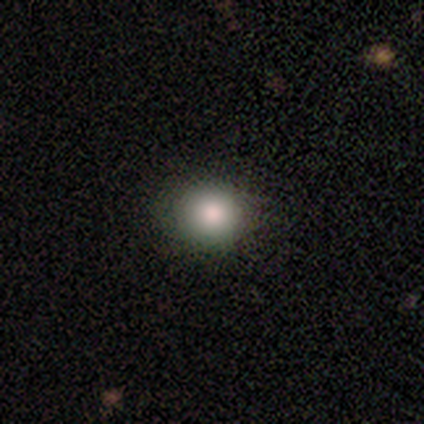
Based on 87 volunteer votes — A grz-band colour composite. It shows a smooth galaxy with no disk features (84%) that is round (82%). Merging: none (87%).